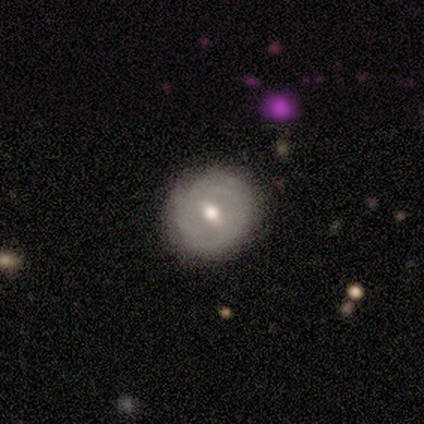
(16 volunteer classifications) featured or disk 50%, smooth 38%, star or artifact 12%. Down the decision tree: edge-on disk — no (100%); bar — weak (62%); spiral arms — yes (62%); spiral arm count — can't tell (60%); spiral winding — tight (100%); bulge size — moderate (62%); merging — none (86%).